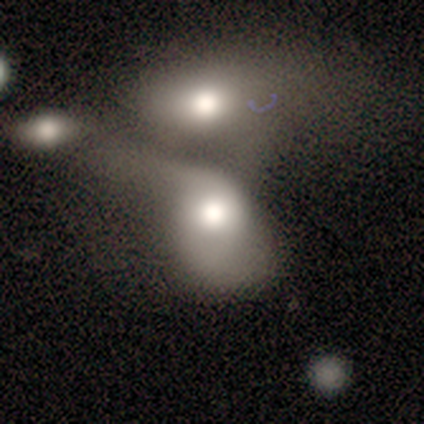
smooth_or_featured: smooth (p=0.60) [alt: featured or disk p=0.40]
how_rounded: round (p=0.67) [alt: in between p=0.33]
merging: merger (p=1.00)